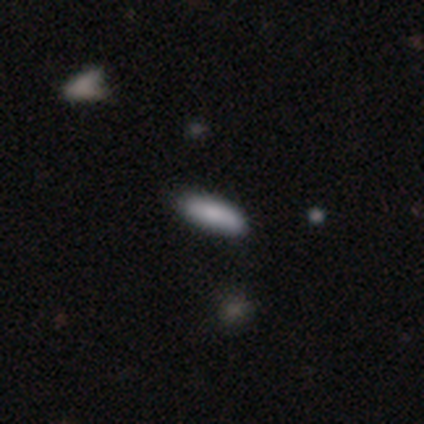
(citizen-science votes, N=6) Smooth or featured: smooth — 67% (featured or disk — 17%)
How rounded: in between — 75% (cigar-shaped — 25%)
Merging: none — 100%